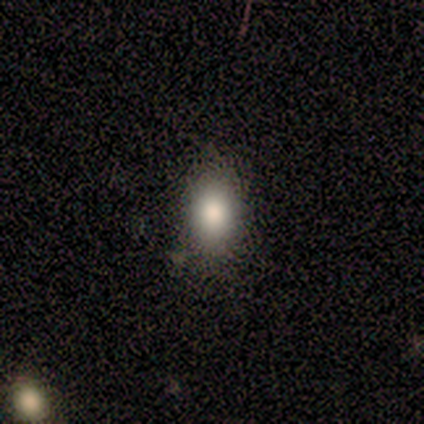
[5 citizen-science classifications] Smooth or featured? smooth (80%)
How rounded? in between (100%)
Merging? none (80%)